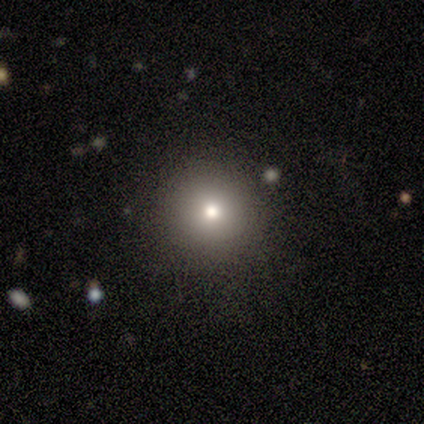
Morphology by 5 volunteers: Smooth or featured?
  - smooth: 80% *
  - star or artifact: 20%
  - featured or disk: 0%
How rounded?
  - round: 100% *
  - in between: 0%
  - cigar-shaped: 0%
Merging?
  - none: 75% *
  - minor disturbance: 25%
  - major disturbance: 0%
  - merger: 0%